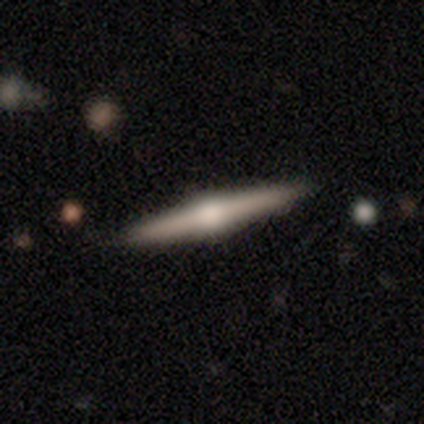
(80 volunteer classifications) Morphology: type=featured or disk (80%); edge-on=yes (98%); edge-on bulge=rounded (95%); merging=none (93%).